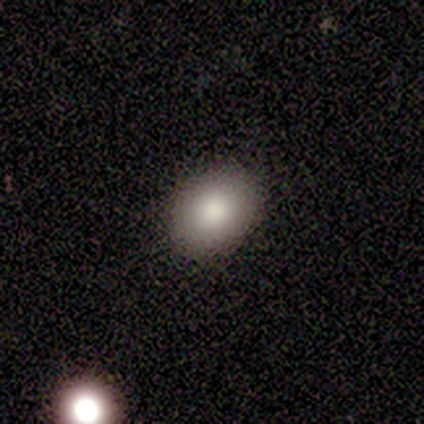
This appears to be a smooth galaxy with no disk features (100%) that is in between round and cigar-shaped (75%). Merging: none (75%).